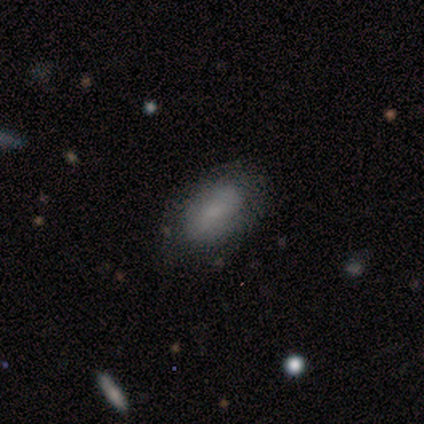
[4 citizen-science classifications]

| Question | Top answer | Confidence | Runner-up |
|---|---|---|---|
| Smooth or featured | smooth | 100% | — |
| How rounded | in between | 100% | — |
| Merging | none | 100% | — |